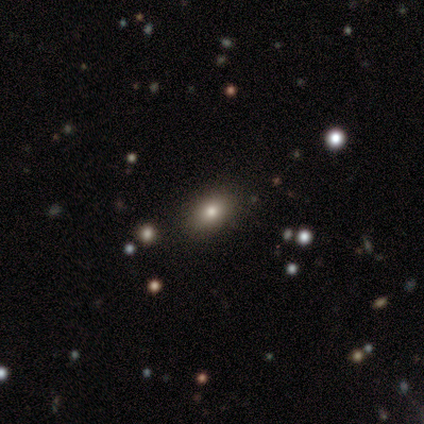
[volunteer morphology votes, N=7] A smooth galaxy with no disk features (71%) that is in between round and cigar-shaped (80%). Merging: none (100%).